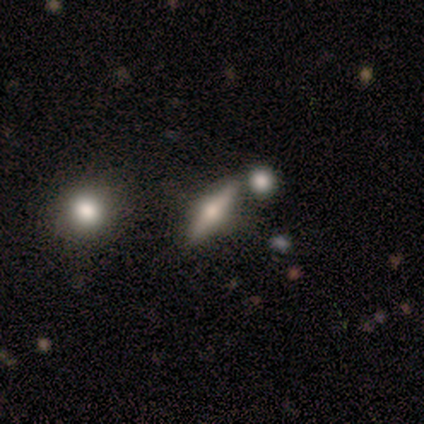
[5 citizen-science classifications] Smooth or featured? 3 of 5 (60%) said featured or disk. Edge-on disk? 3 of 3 (100%) said yes. Edge-on bulge? 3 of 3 (100%) said rounded. Merging? 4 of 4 (100%) said none.